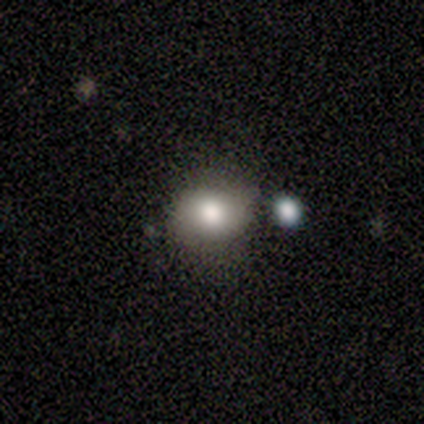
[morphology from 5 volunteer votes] smooth-or-featured: smooth: 80% | featured or disk: 20% | star or artifact: 0%
  how-rounded: round: 50% (tied) | in between: 50% (tied) | cigar-shaped: 0%
  merging: none: 80% | minor disturbance: 20% | major disturbance: 0% | merger: 0%